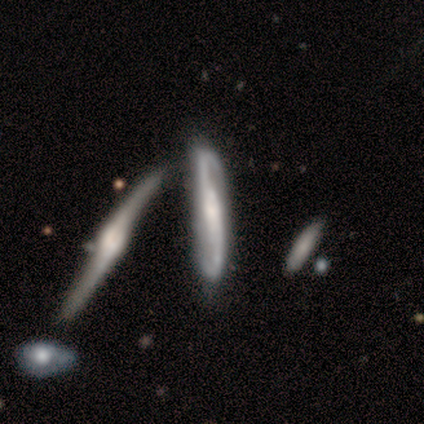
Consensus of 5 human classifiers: smooth-or-featured: featured or disk: 80% | smooth: 20% | star or artifact: 0%
  disk-edge-on: no: 75% | yes: 25%
    bar: strong: 33% (tied) | weak: 33% (tied) | no: 33% (tied)
    has-spiral-arms: yes: 100% | no: 0%
      spiral-winding: loose: 100% | tight: 0% | medium: 0%
      spiral-arm-count: 2: 100% | 1: 0% | 3: 0% | 4: 0% | more than 4: 0% | can't tell: 0%
    bulge-size: small: 67% | moderate: 33% | dominant: 0% | large: 0% | none: 0%
  merging: none: 100% | minor disturbance: 0% | major disturbance: 0% | merger: 0%